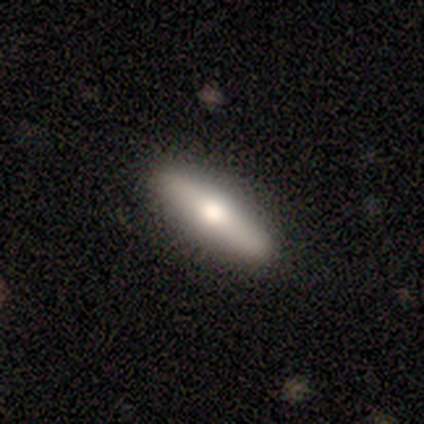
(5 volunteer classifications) Morphology: type=featured or disk (60%); edge-on=yes (100%); edge-on bulge=rounded (67%); merging=none (100%).